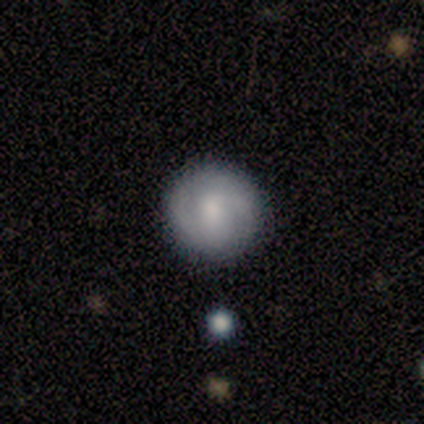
Volunteers were most divided on "smooth or featured" (2-way tie): smooth: 40%, featured or disk: 40%, star or artifact: 20%. More confident: how rounded — round (100%); merging — none (100%).